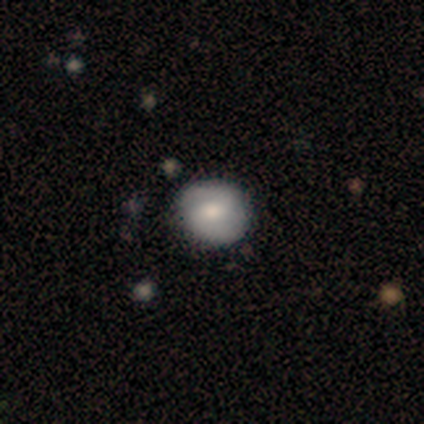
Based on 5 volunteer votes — Volunteers were most divided on "smooth or featured": smooth: 60%, featured or disk: 40%, star or artifact: 0%. More confident: how rounded — round (100%); merging — none (80%).